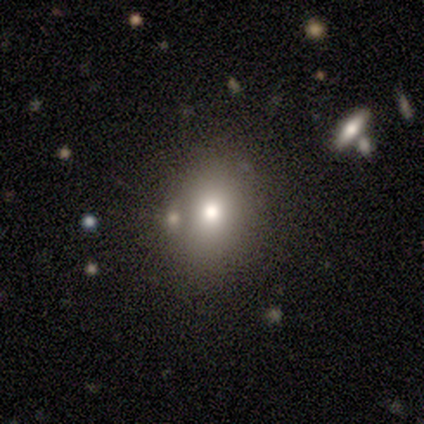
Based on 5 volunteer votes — A smooth galaxy with no disk features (80%) that is round (50%, tied with in between).

Vote fractions:
- Smooth or featured? smooth: 80% / star or artifact: 20% / featured or disk: 0%
- How rounded? round: 50% (tied) / in between: 50% (tied) / cigar-shaped: 0%
- Merging? none: 75% / minor disturbance: 25% / major disturbance: 0% / merger: 0%